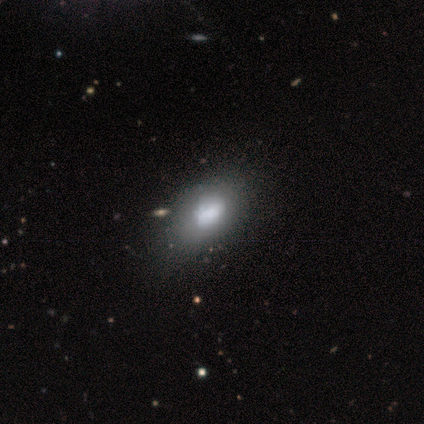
Smooth or featured? 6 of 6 (100%) said smooth. How rounded? 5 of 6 (83%) said in between. Merging? 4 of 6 (67%) said none.